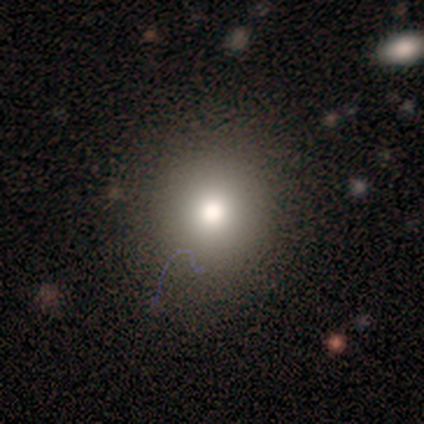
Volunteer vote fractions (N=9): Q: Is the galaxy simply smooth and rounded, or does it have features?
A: smooth — 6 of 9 (67%).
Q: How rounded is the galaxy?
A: round — 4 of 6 (67%).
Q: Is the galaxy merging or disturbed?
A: none — 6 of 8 (75%).